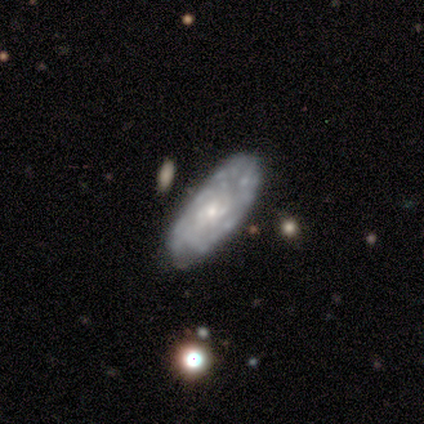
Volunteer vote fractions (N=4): Overall: featured or disk (100%). Edge-on disk: no (100%). Bar: no (100%). Spiral arms: no (75%). Bulge size: moderate (50%, tied with small). Merging: none (50%; minor disturbance 25%).